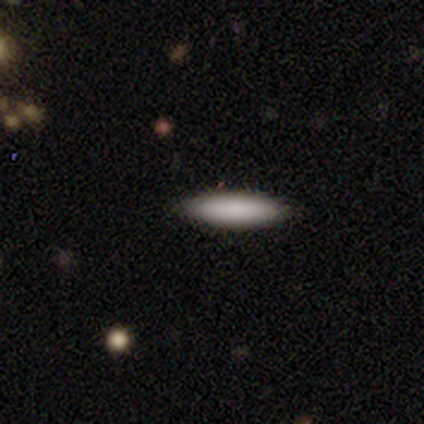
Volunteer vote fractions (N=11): Smooth or featured? 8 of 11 (73%) said smooth. How rounded? 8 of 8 (100%) said cigar-shaped. Merging? 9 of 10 (90%) said none.